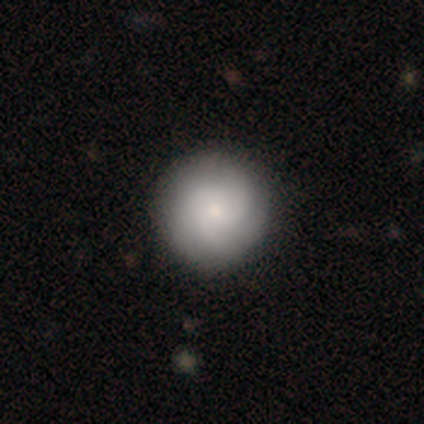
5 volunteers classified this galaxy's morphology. Smooth or featured? 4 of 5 (80%) said featured or disk. Edge-on disk? 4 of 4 (100%) said no. Bar? 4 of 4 (100%) said no. Spiral arms? 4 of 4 (100%) said yes. Spiral winding? 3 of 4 (75%) said tight. Spiral arm count? 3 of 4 (75%) said 3. Bulge size? 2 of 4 (50%, tied with small) said moderate. Merging? 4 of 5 (80%) said none.